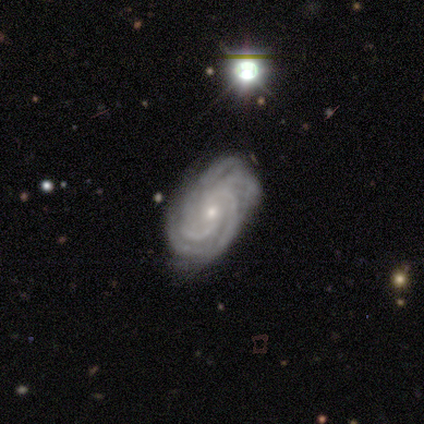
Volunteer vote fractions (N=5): smooth-or-featured: featured or disk: 100% | smooth: 0% | star or artifact: 0%
  disk-edge-on: no: 80% | yes: 20%
    bar: no: 75% | weak: 25% | strong: 0%
    has-spiral-arms: yes: 100% | no: 0%
      spiral-winding: tight: 100% | medium: 0% | loose: 0%
      spiral-arm-count: 4: 50% | more than 4: 25% | can't tell: 25% | 1: 0% | 2: 0% | 3: 0%
    bulge-size: small: 100% | dominant: 0% | large: 0% | moderate: 0% | none: 0%
  merging: none: 80% | minor disturbance: 20% | major disturbance: 0% | merger: 0%